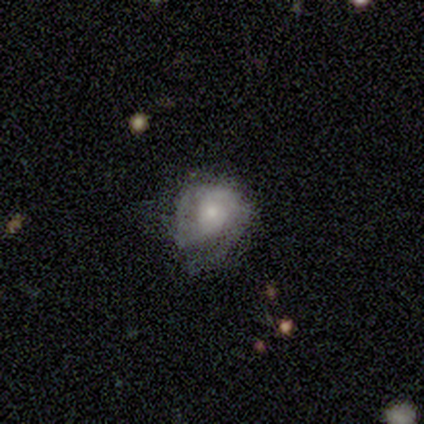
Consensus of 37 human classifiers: smooth-or-featured: featured or disk: 70% | smooth: 27% | star or artifact: 3%
  disk-edge-on: no: 100% | yes: 0%
    bar: no: 73% | weak: 23% | strong: 4%
    has-spiral-arms: yes: 65% | no: 35%
      spiral-winding: tight: 47% (tied) | medium: 47% (tied) | loose: 6%
      spiral-arm-count: 2: 59% | can't tell: 24% | 3: 12% | more than 4: 6% | 1: 0% | 4: 0%
    bulge-size: small: 58% | moderate: 27% | large: 15% | dominant: 0% | none: 0%
  merging: minor disturbance: 47% | none: 36% | major disturbance: 17% | merger: 0%